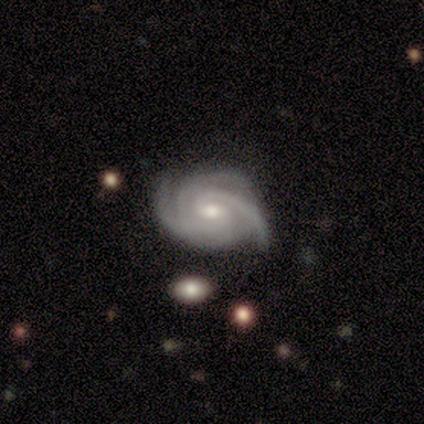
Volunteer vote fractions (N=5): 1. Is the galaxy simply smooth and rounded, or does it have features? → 100% featured or disk, 0% smooth, 0% star or artifact.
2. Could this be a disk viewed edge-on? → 100% no, 0% yes.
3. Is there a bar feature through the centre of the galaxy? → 60% no, 40% weak, 0% strong.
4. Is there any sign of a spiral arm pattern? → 100% yes, 0% no.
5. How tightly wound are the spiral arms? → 60% tight, 40% medium, 0% loose.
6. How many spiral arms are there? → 60% 3, 20% 2, 20% 4, 0% 1, 0% more than 4, 0% can't tell.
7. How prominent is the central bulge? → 60% small, 20% moderate, 20% none, 0% dominant, 0% large.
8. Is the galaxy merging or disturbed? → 100% none, 0% minor disturbance, 0% major disturbance, 0% merger.